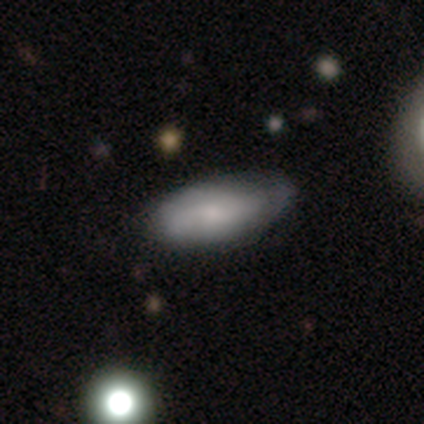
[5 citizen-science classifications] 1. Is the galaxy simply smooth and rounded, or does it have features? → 80% smooth, 20% featured or disk, 0% star or artifact.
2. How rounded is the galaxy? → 50% in between (tied), 50% cigar-shaped (tied), 0% round.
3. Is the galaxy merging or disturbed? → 60% minor disturbance, 20% none, 20% major disturbance, 0% merger.